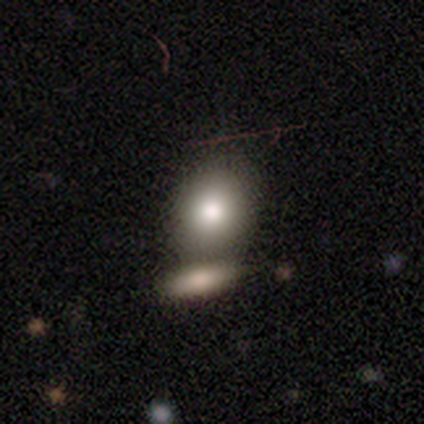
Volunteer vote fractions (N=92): A smooth galaxy with no disk features (77%) that is round (54%). Merging: merger (48%).